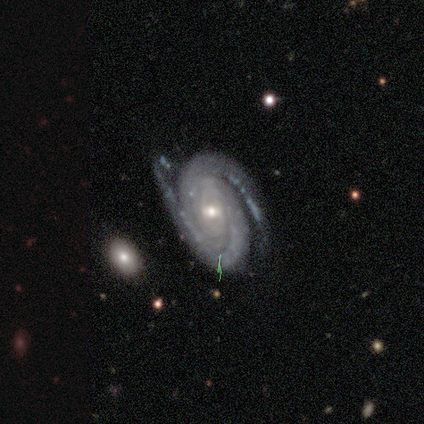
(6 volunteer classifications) This is clearly a featured or disk galaxy (100%). It is clearly not viewed edge-on (100%). Bar: clearly no (83%). Spiral arm pattern: clearly yes (100%). Spiral arm count: clearly 2 (100%). Spiral winding: possibly tight (50%). Central bulge: possibly moderate (50%, tied with small). Merging: likely none (67%).